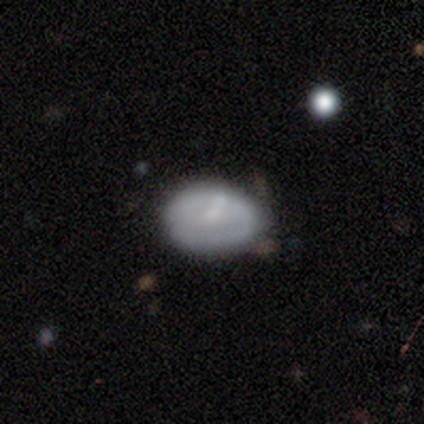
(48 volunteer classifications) Volunteers were most divided on "smooth or featured": smooth: 71%, featured or disk: 25%, star or artifact: 4%. More confident: how rounded — in between (91%); merging — none (80%).